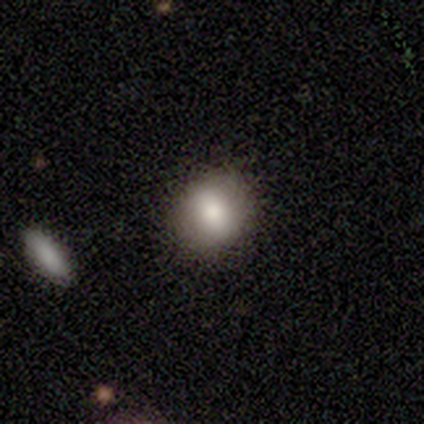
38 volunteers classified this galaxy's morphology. Volunteers were most divided on "how rounded": round: 66%, in between: 34%, cigar-shaped: 0%. More confident: smooth or featured — smooth (76%); merging — none (74%).